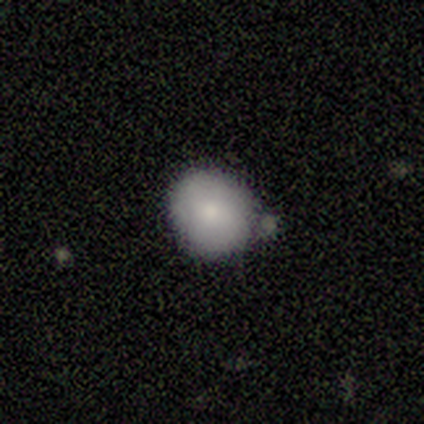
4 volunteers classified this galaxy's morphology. Q: Smooth or featured?
A: smooth (50%); runner-up: featured or disk (25%)
Q: How rounded?
A: round (100%)
Q: Merging?
A: none (100%)